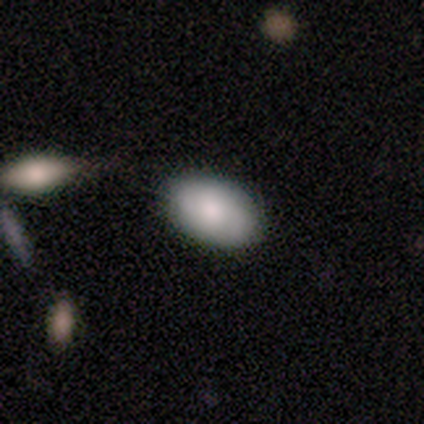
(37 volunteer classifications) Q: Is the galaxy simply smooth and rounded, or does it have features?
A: smooth — 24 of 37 (65%).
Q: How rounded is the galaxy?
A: in between — 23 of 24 (96%).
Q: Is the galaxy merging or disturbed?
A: none — 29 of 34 (85%).